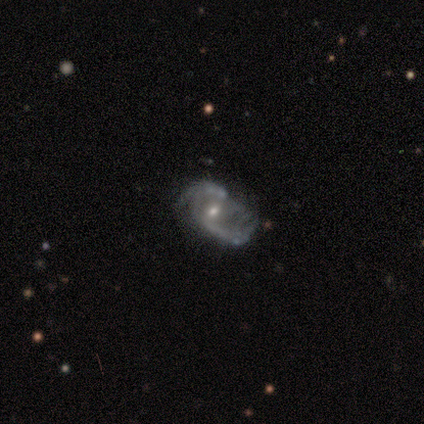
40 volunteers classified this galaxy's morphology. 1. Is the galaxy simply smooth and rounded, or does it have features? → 92% featured or disk, 5% smooth, 2% star or artifact.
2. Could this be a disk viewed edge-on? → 100% no, 0% yes.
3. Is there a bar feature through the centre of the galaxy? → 51% weak, 41% no, 8% strong.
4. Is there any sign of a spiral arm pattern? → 92% yes, 8% no.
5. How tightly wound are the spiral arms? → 47% loose, 38% medium, 15% tight.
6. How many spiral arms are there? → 74% 2, 15% can't tell, 6% 3, 3% 1, 3% 4, 0% more than 4.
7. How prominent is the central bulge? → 62% small, 35% moderate, 3% dominant, 0% large, 0% none.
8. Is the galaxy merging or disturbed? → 36% none, 33% major disturbance, 31% minor disturbance, 0% merger.